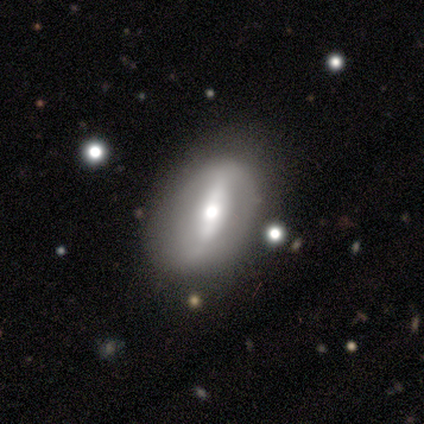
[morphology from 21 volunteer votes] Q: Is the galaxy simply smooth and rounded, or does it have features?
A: featured or disk — 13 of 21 (62%).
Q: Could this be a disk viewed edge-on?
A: no — 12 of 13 (92%).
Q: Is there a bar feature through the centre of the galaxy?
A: strong — 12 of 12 (100%).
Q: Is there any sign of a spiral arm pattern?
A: no — 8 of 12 (67%).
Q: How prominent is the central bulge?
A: moderate — 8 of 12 (67%).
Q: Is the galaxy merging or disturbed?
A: none — 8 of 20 (40%).